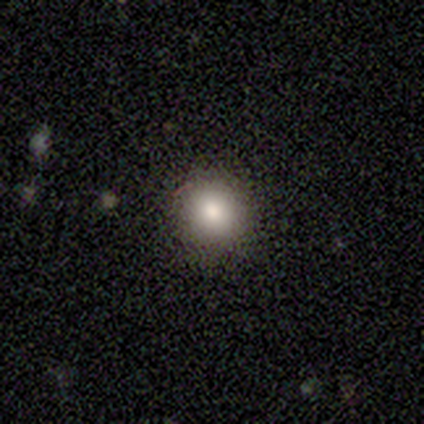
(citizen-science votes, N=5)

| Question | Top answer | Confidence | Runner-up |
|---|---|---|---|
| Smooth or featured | smooth | 80% | star or artifact (20%) |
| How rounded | round | 100% | — |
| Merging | none | 75% | minor disturbance (25%) |